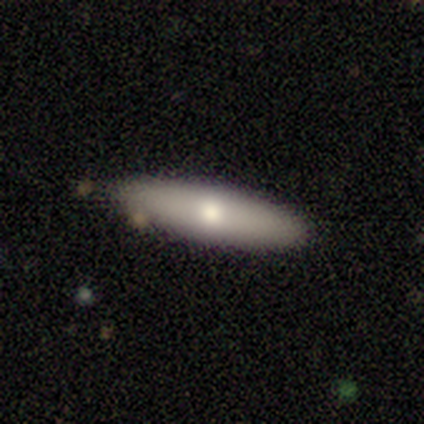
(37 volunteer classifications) Overall: smooth (73%). How rounded: cigar-shaped (67%; in between 30%). Merging: none (81%).